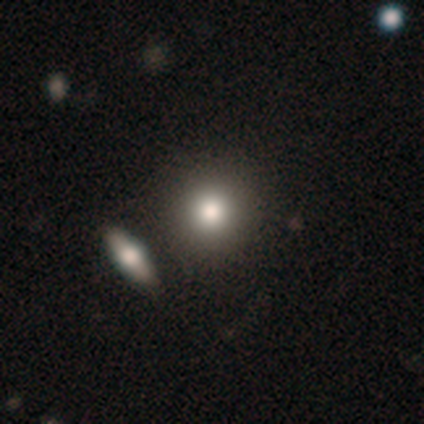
Smooth or featured: smooth — 82% (featured or disk — 10%)
How rounded: round — 94% (in between — 6%)
Merging: none — 67% (merger — 17%)